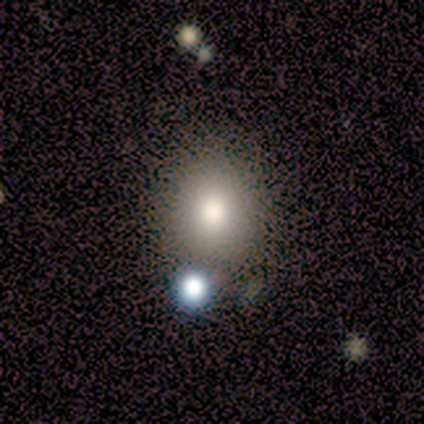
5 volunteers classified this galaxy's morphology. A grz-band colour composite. It shows a smooth galaxy with no disk features (100%) that is round (100%). Merging: none (60%).